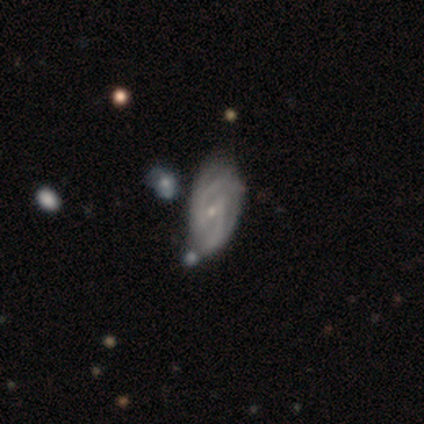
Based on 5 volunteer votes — This appears to be a featured or disk galaxy (60%) with a weak bar (67%), 2 (100%) medium (100%) spiral arms (67%) and a moderate central bulge (67%). Merging: minor disturbance (75%).